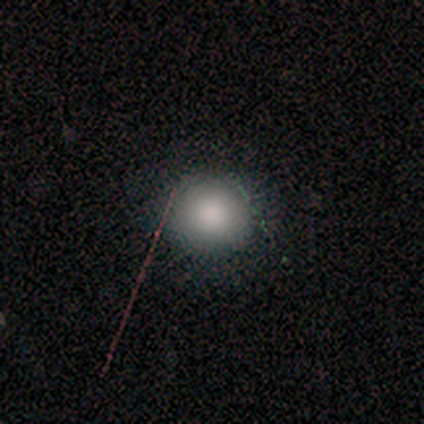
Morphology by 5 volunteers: smooth_or_featured: smooth (p=0.60) [alt: featured or disk p=0.20]
how_rounded: round (p=0.67) [alt: cigar-shaped p=0.33]
merging: none (p=0.50) [alt: major disturbance p=0.25]